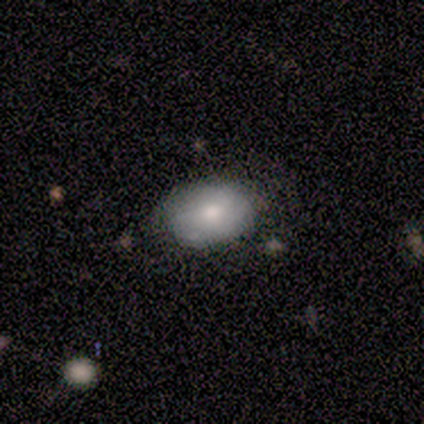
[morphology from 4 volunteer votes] smooth 75%, featured or disk 25%, star or artifact 0%. Down the decision tree: how rounded — in between (100%); merging — none (100%).